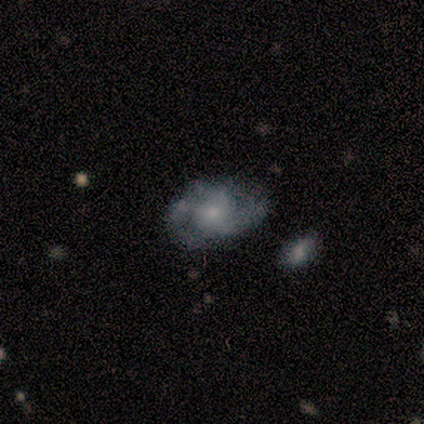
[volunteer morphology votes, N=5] Smooth or featured: featured or disk — 80% (smooth — 20%)
Edge-on disk: no — 100%
Bar: no — 75% (weak — 25%)
Spiral arms: yes — 75% (no — 25%)
Spiral winding: medium — 67% (tight — 33%)
Spiral arm count: can't tell — 67% (2 — 33%)
Bulge size: small — 75% (moderate — 25%)
Merging: none — 80% (minor disturbance — 20%)